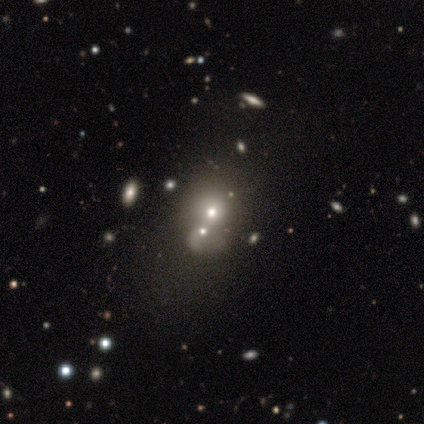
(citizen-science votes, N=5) star or artifact 80%, smooth 20%, featured or disk 0%.